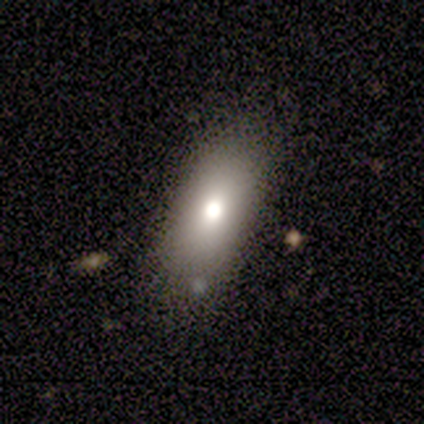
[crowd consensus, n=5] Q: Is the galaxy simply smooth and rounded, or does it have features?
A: smooth — 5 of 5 (100%).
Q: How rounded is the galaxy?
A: in between — 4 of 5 (80%).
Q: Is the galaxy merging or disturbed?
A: none — 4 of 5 (80%).